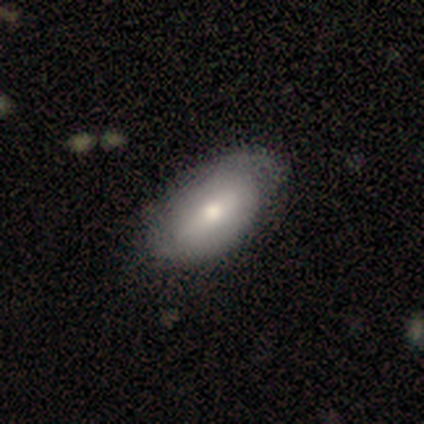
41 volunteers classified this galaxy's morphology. smooth_or_featured: smooth (p=0.56) [alt: featured or disk p=0.37]
how_rounded: in between (p=1.00)
merging: none (p=0.53) [alt: minor disturbance p=0.24]